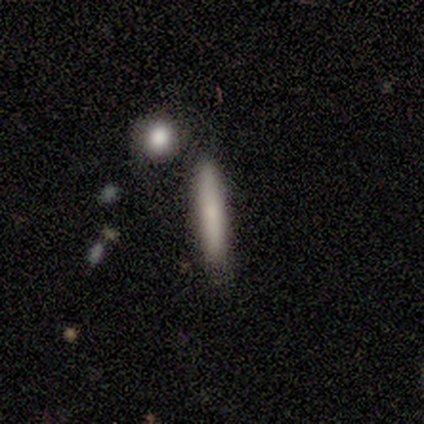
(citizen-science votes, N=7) Morphology: type=smooth (71%); roundness=cigar-shaped (100%); merging=none (50%).